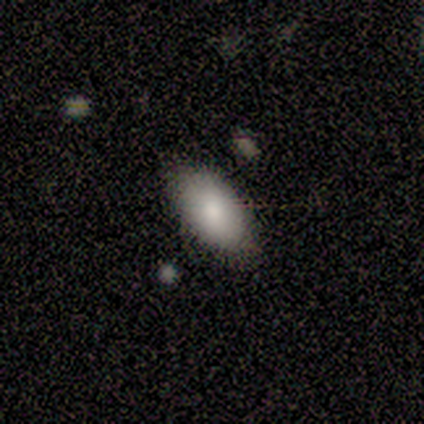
A smooth galaxy with no disk features (40%, tied with featured or disk) that is in between round and cigar-shaped (100%).

Vote fractions:
- Smooth or featured? smooth: 40% (tied) / featured or disk: 40% (tied) / star or artifact: 20%
- How rounded? in between: 100% / round: 0% / cigar-shaped: 0%
- Merging? none: 75% / merger: 25% / minor disturbance: 0% / major disturbance: 0%